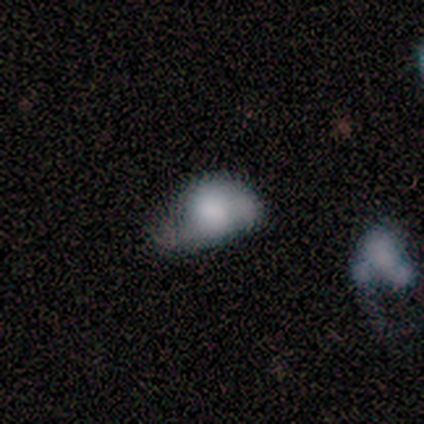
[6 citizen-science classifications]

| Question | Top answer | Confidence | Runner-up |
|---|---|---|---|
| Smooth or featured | featured or disk | 83% | smooth (17%) |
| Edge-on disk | no | 100% | — |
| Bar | no | 80% | weak (20%) |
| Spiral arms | yes | 60% | no (40%) |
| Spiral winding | tight | 33% | tied: medium (33%), loose (33%) |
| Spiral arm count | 1 | 33% | tied: 2 (33%), can't tell (33%) |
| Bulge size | moderate | 40% | tied: none (40%) |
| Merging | major disturbance | 67% | none (17%) |